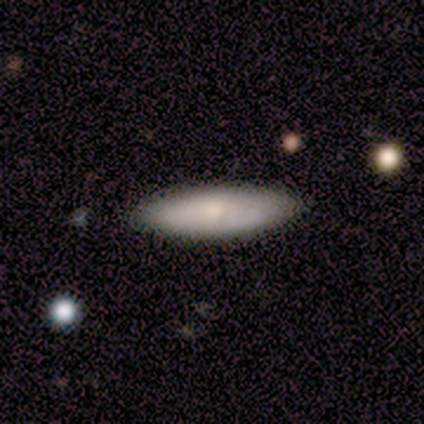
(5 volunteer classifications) smooth_or_featured: smooth (p=0.60) [alt: featured or disk p=0.20]
how_rounded: cigar-shaped (p=0.67) [alt: in between p=0.33]
merging: none (p=0.75) [alt: minor disturbance p=0.25]